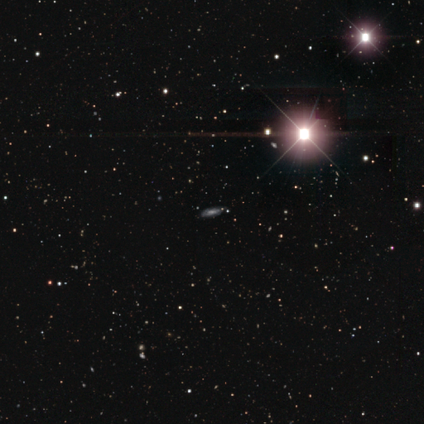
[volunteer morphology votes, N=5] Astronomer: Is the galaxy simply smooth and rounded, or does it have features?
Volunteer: smooth — 40%, tied with featured or disk at 40%.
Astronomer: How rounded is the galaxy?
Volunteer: in between — 50%, tied with cigar-shaped at 50%.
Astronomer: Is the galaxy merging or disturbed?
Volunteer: none — 50%, tied with minor disturbance at 50%.